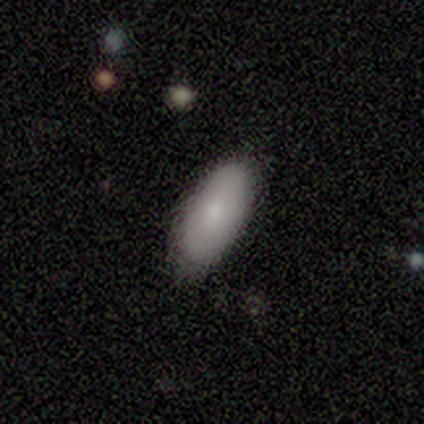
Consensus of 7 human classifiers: Morphology: type=smooth (100%); roundness=in between (86%); merging=none (86%).